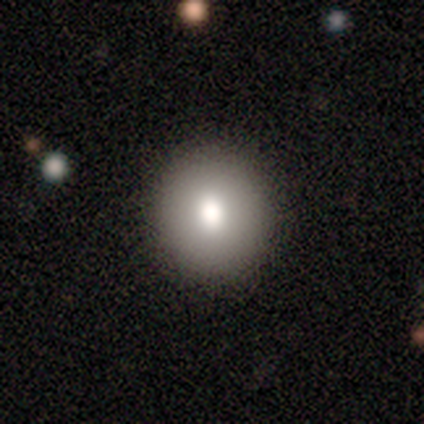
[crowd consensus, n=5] smooth-or-featured: smooth: 60% | featured or disk: 20% | star or artifact: 20%
  how-rounded: round: 67% | in between: 33% | cigar-shaped: 0%
  merging: none: 75% | major disturbance: 25% | minor disturbance: 0% | merger: 0%